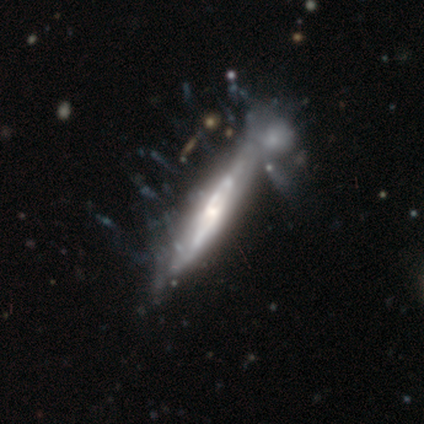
Smooth or featured?
  - featured or disk: 87% *
  - smooth: 8%
  - star or artifact: 5%
Edge-on disk?
  - yes: 68% *
  - no: 32%
Edge-on bulge?
  - none: 46% *
  - rounded: 43%
  - boxy: 11%
Merging?
  - merger: 32% *
  - major disturbance: 18%
  - none: 8%
  - minor disturbance: 4%